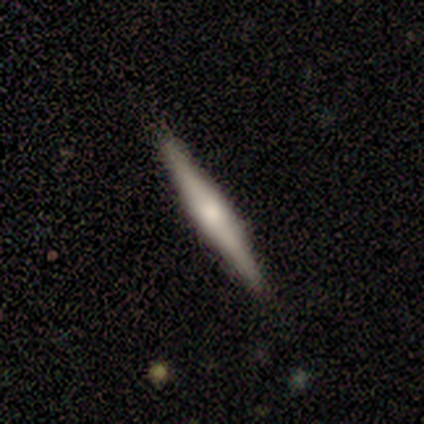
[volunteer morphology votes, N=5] Smooth or featured: smooth — 60% (featured or disk — 40%)
How rounded: cigar-shaped — 100%
Merging: none — 80% (minor disturbance — 20%)